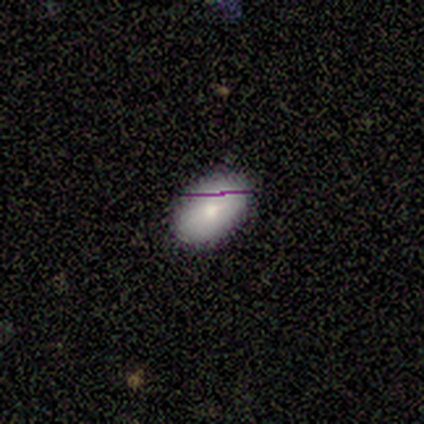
A smooth galaxy with no disk features (80%) that is in between round and cigar-shaped (75%). Merging: none (100%).